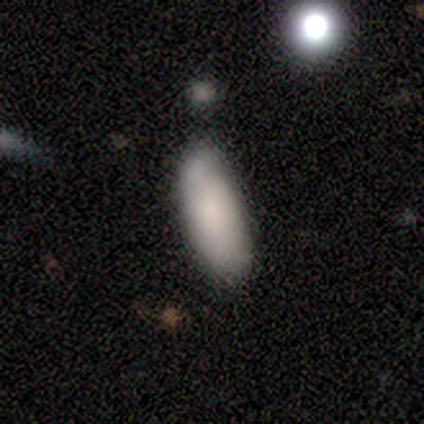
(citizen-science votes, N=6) Volunteers were most divided on "how rounded" (2-way tie): in between: 50%, cigar-shaped: 50%, round: 0%. More confident: smooth or featured — smooth (100%); merging — none (83%).